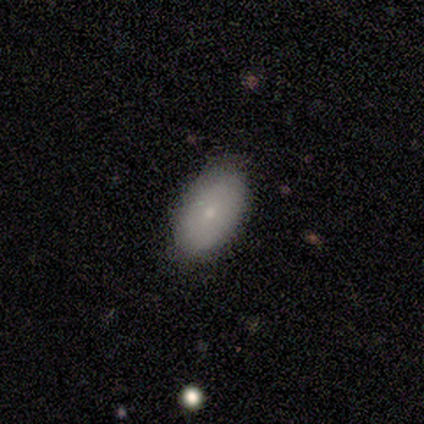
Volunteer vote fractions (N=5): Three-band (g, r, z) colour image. It shows a smooth galaxy with no disk features (60%) that is in between round and cigar-shaped (100%). Merging: none (75%).